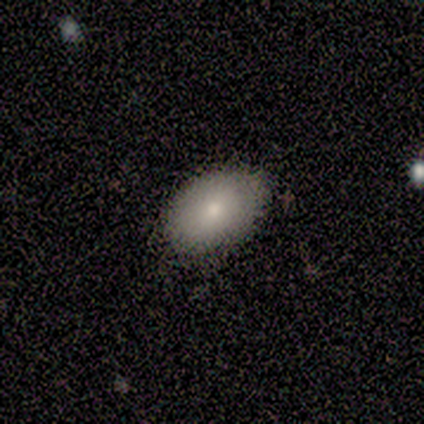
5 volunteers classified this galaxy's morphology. Overall: smooth (100%). How rounded: in between (100%). Merging: none (100%).